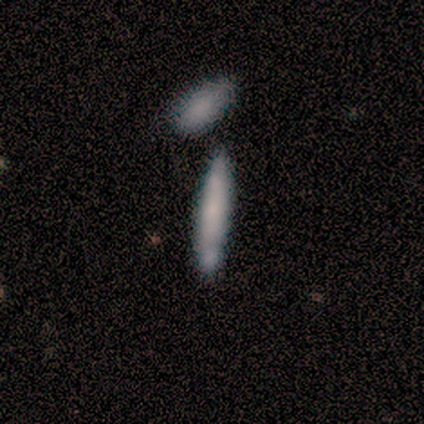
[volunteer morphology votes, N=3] A smooth galaxy with no disk features (100%) that is cigar-shaped (100%).

Vote fractions:
- Smooth or featured? smooth: 100% / featured or disk: 0% / star or artifact: 0%
- How rounded? cigar-shaped: 100% / round: 0% / in between: 0%
- Merging? none: 33% (tied) / major disturbance: 33% (tied) / merger: 33% (tied) / minor disturbance: 0%